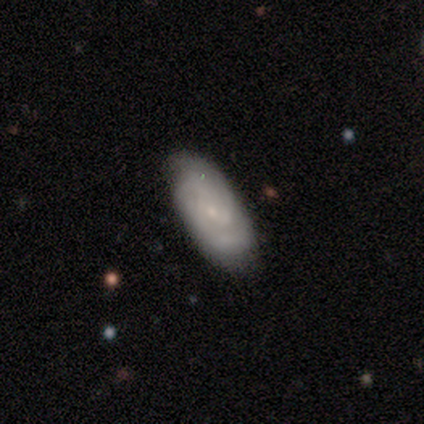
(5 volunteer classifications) A featured or disk galaxy (100%) with no bar (60%), tight (40%, tied with loose) spiral arms (100%) and a small central bulge (80%).

Vote fractions:
- Smooth or featured? featured or disk: 100% / smooth: 0% / star or artifact: 0%
- Edge-on disk? no: 100% / yes: 0%
- Bar? no: 60% / strong: 20% / weak: 20%
- Spiral arms? yes: 100% / no: 0%
- Spiral winding? tight: 40% (tied) / loose: 40% (tied) / medium: 20%
- Spiral arm count? can't tell: 40% / 2: 20% / 3: 20% / 4: 20% / 1: 0% / more than 4: 0%
- Bulge size? small: 80% / none: 20% / dominant: 0% / large: 0% / moderate: 0%
- Merging? none: 100% / minor disturbance: 0% / major disturbance: 0% / merger: 0%